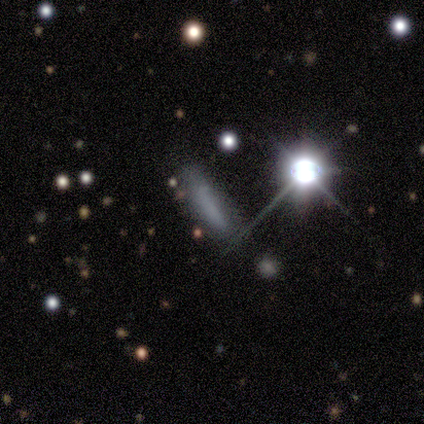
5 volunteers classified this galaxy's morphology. Overall: smooth (40%, tied with star or artifact). How rounded: in between (50%, tied with cigar-shaped). Merging: none (100%).